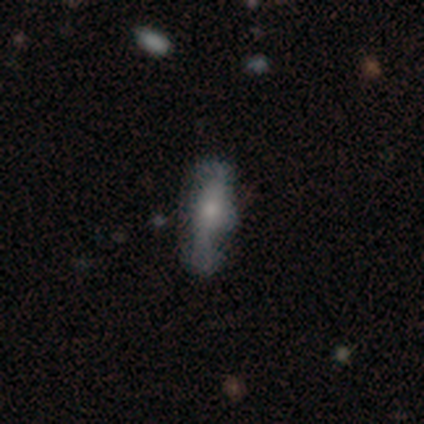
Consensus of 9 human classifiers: featured or disk 67%, smooth 33%, star or artifact 0%. Down the decision tree: edge-on disk — no (67%); bar — no (100%); spiral arms — yes (100%); spiral arm count — 2 (50%, tied with can't tell); spiral winding — loose (50%); bulge size — moderate (50%); merging — none (56%).